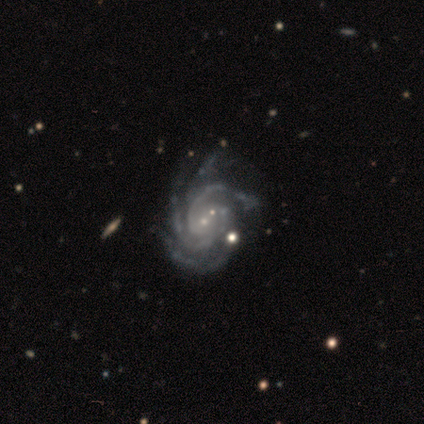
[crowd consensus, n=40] Smooth or featured: featured or disk — 95% (star or artifact — 5%)
Edge-on disk: no — 97% (yes — 3%)
Bar: no — 57% (weak — 35%)
Spiral arms: yes — 100%
Spiral winding: tight — 65% (medium — 32%)
Spiral arm count: 4 — 46% (3 — 35%)
Bulge size: small — 86% (none — 8%)
Merging: none — 58% (minor disturbance — 24%)